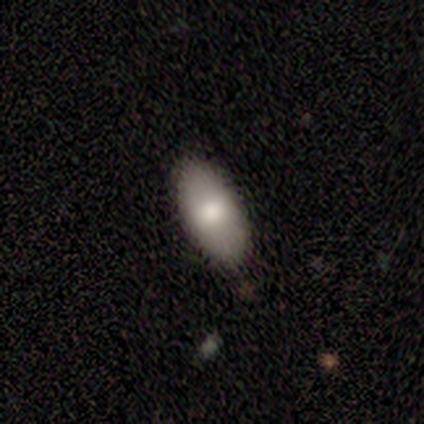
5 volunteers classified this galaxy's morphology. This appears to be a smooth galaxy with no disk features (100%) that is in between round and cigar-shaped (80%). Merging: none (80%).